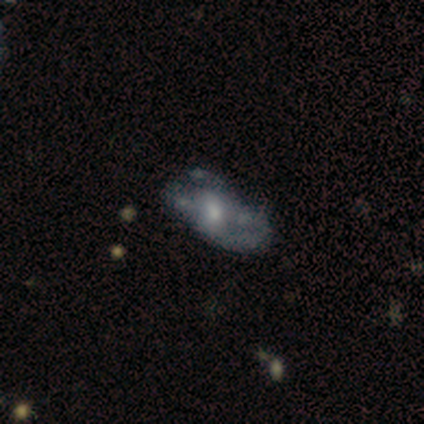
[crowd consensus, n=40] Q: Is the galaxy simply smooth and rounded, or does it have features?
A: featured or disk — 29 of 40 (72%).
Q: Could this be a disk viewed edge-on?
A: no — 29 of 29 (100%).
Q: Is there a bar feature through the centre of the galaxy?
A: no — 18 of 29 (62%).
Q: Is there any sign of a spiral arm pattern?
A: no — 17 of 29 (59%).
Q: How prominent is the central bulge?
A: moderate — 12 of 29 (41%).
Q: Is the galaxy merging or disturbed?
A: none — 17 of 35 (49%).